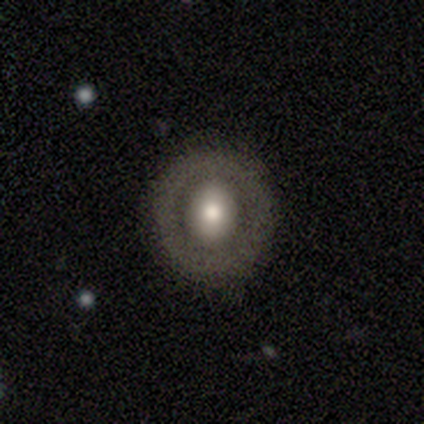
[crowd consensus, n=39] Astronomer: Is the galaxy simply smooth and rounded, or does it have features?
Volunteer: featured or disk — 49% (runner-up: smooth, 41%).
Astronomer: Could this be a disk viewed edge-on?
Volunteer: no — 84%.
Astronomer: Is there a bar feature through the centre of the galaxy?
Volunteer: no — 69%.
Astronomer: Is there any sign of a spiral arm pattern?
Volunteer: no — 100%.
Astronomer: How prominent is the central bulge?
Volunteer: moderate — 56%.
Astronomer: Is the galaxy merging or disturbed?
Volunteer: none — 80%.